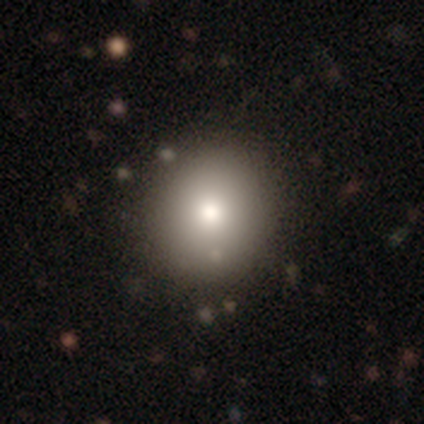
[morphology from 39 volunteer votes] This is clearly a smooth galaxy (87%). How rounded: clearly round (94%). Merging: likely none (70%).